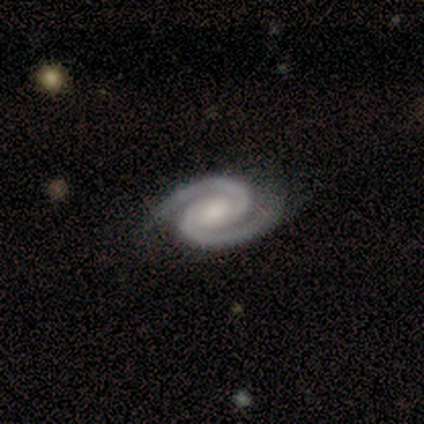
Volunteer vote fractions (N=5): featured or disk 100%, smooth 0%, star or artifact 0%. Down the decision tree: edge-on disk — no (100%); bar — strong (40%, tied with weak); spiral arms — yes (100%); spiral arm count — 2 (100%); spiral winding — tight (60%); bulge size — moderate (40%); merging — none (80%).